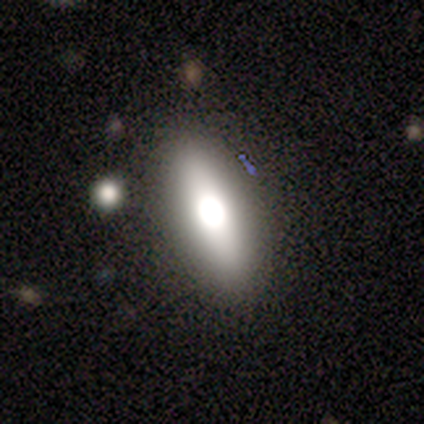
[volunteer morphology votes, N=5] type=smooth (60%); roundness=in between (67%); merging=none (50%).